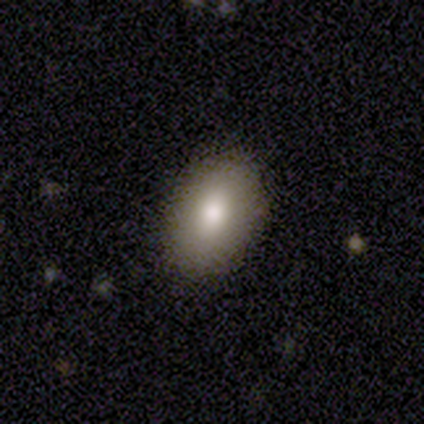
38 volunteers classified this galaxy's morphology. Smooth or featured: smooth — 82% (featured or disk — 11%)
How rounded: in between — 90% (round — 6%)
Merging: none — 86% (minor disturbance — 14%)